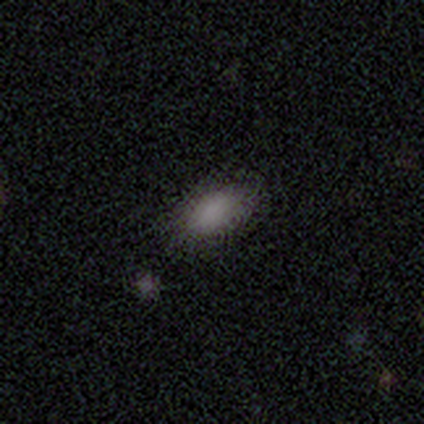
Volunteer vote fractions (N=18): Q: Smooth or featured?
A: smooth (78%); runner-up: star or artifact (17%)
Q: How rounded?
A: in between (100%)
Q: Merging?
A: none (67%); runner-up: minor disturbance (13%)